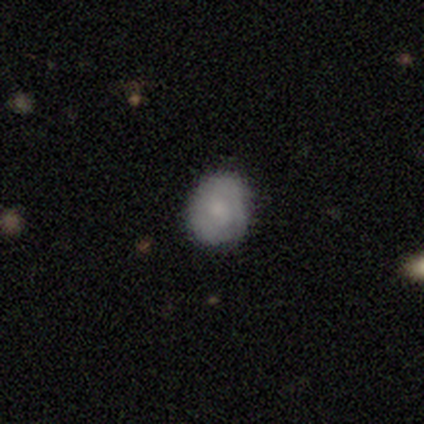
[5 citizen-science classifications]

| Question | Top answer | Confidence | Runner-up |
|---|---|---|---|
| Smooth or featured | smooth | 40% | tied: featured or disk (40%) |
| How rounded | round | 100% | — |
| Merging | none | 75% | minor disturbance (25%) |